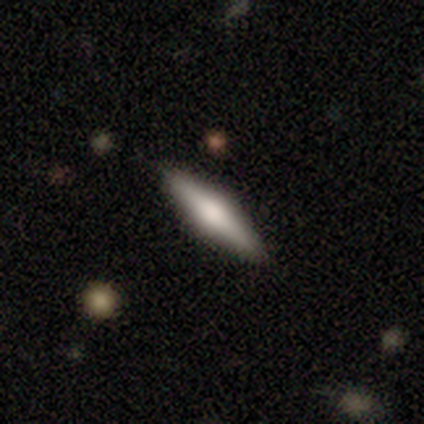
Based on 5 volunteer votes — smooth_or_featured: smooth (p=0.60) [alt: featured or disk p=0.40]
how_rounded: cigar-shaped (p=0.67) [alt: in between p=0.33]
merging: none (p=1.00)